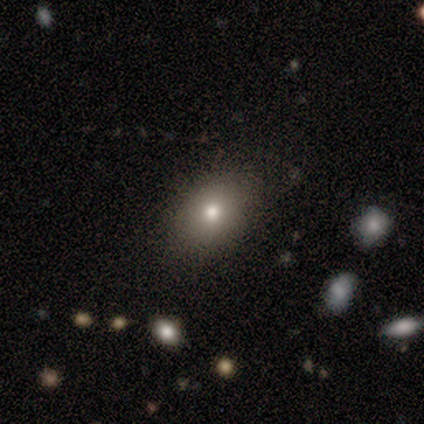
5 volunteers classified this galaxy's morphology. This appears to be a smooth galaxy with no disk features (100%) that is in between round and cigar-shaped (100%). Merging: none (100%).